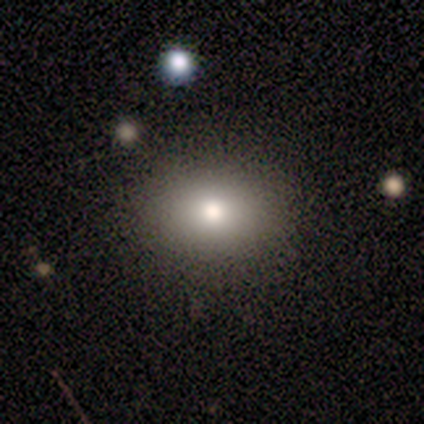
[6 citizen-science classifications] Q: Smooth or featured?
A: smooth (83%); runner-up: star or artifact (17%)
Q: How rounded?
A: in between (60%); runner-up: round (40%)
Q: Merging?
A: none (100%)